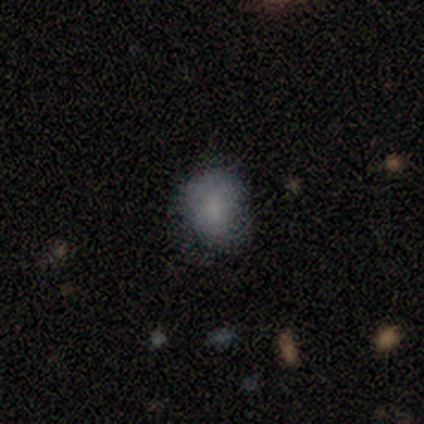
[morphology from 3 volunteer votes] Q: Smooth or featured?
A: featured or disk (67%); runner-up: smooth (33%)
Q: Edge-on disk?
A: yes (50%); tied with: no (50%)
Q: Edge-on bulge?
A: rounded (100%)
Q: Merging?
A: none (67%); runner-up: minor disturbance (33%)